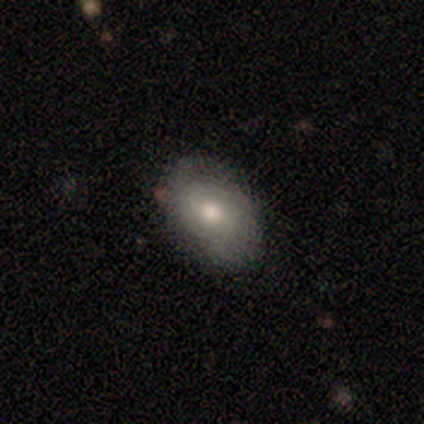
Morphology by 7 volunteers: A featured or disk galaxy (57%) with a weak bar (67%), 1 (50%, tied with 2) tight (50%, tied with medium) spiral arms (67%) and a moderate central bulge (100%).

Vote fractions:
- Smooth or featured? featured or disk: 57% / smooth: 43% / star or artifact: 0%
- Edge-on disk? no: 75% / yes: 25%
- Bar? weak: 67% / no: 33% / strong: 0%
- Spiral arms? yes: 67% / no: 33%
- Spiral winding? tight: 50% (tied) / medium: 50% (tied) / loose: 0%
- Spiral arm count? 1: 50% (tied) / 2: 50% (tied) / 3: 0% / 4: 0% / more than 4: 0% / can't tell: 0%
- Bulge size? moderate: 100% / dominant: 0% / large: 0% / small: 0% / none: 0%
- Merging? none: 57% / minor disturbance: 43% / major disturbance: 0% / merger: 0%